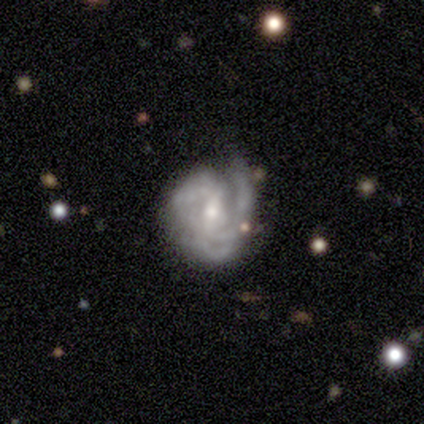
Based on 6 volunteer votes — Smooth or featured: featured or disk — 83% (smooth — 17%)
Edge-on disk: no — 100%
Bar: no — 60% (weak — 40%)
Spiral arms: yes — 100%
Spiral winding: tight — 80% (loose — 20%)
Spiral arm count: 3 — 60% (2 — 20%)
Bulge size: small — 100%
Merging: none — 33% (tied with minor disturbance — 33%; major disturbance — 33%)